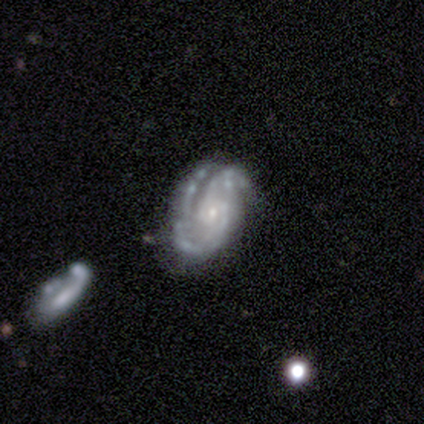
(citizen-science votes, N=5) Q: Smooth or featured?
A: featured or disk (80%); runner-up: star or artifact (20%)
Q: Edge-on disk?
A: no (100%)
Q: Bar?
A: no (100%)
Q: Spiral arms?
A: yes (100%)
Q: Spiral winding?
A: medium (50%); runner-up: tight (25%)
Q: Spiral arm count?
A: 3 (75%); runner-up: 4 (25%)
Q: Bulge size?
A: small (100%)
Q: Merging?
A: none (50%); tied with: minor disturbance (50%)